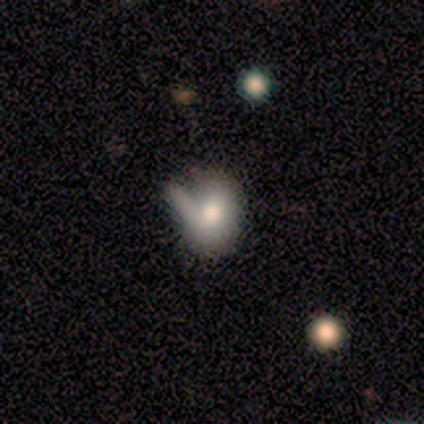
smooth-or-featured: smooth: 60% | featured or disk: 40% | star or artifact: 0%
  how-rounded: in between: 67% | round: 33% | cigar-shaped: 0%
  merging: minor disturbance: 60% | none: 20% | merger: 20% | major disturbance: 0%